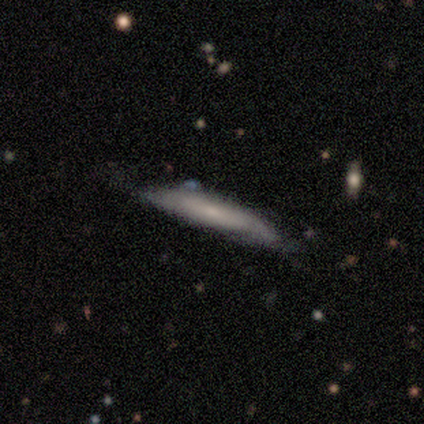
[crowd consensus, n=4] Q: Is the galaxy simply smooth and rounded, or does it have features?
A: smooth — 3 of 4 (75%).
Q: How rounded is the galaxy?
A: cigar-shaped — 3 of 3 (100%).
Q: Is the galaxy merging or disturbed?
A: minor disturbance — 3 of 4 (75%).